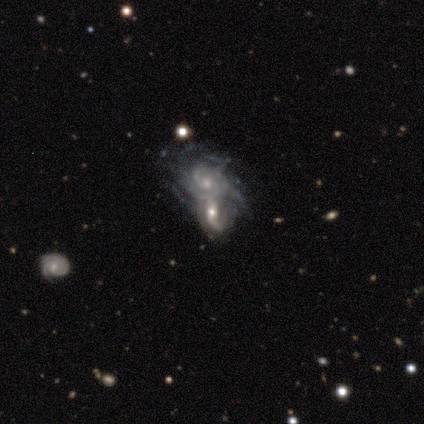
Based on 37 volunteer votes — Q: Smooth or featured?
A: featured or disk (84%); runner-up: star or artifact (11%)
Q: Edge-on disk?
A: no (100%)
Q: Bar?
A: no (65%); runner-up: weak (23%)
Q: Spiral arms?
A: yes (100%)
Q: Spiral winding?
A: tight (45%); runner-up: medium (35%)
Q: Spiral arm count?
A: can't tell (42%); runner-up: 2 (29%)
Q: Bulge size?
A: moderate (52%); runner-up: small (42%)
Q: Merging?
A: merger (76%); runner-up: minor disturbance (15%)